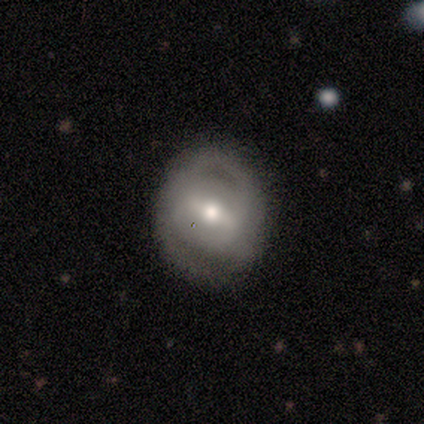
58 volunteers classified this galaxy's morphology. This is likely a featured or disk galaxy (69%). It is clearly not viewed edge-on (92%). Bar: possibly strong (54%). Spiral arm pattern: possibly yes (59%). Spiral arm count: likely 2 (73%). Spiral winding: possibly tight (59%). Central bulge: likely moderate (70%). Merging: likely none (62%).